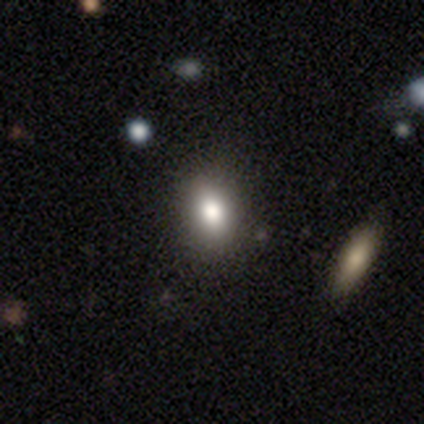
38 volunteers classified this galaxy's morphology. smooth-or-featured: smooth: 71% | featured or disk: 16% | star or artifact: 13%
  how-rounded: in between: 74% | round: 19% | cigar-shaped: 7%
  merging: none: 82% | minor disturbance: 12% | major disturbance: 3% | merger: 3%